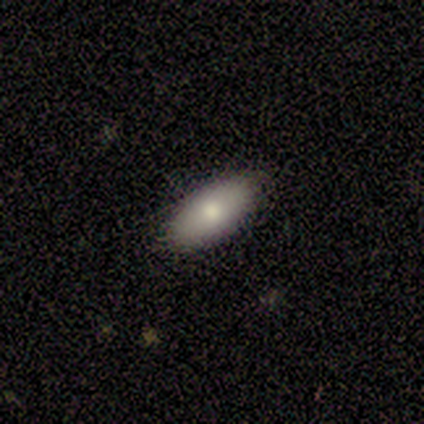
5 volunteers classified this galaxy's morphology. Consensus on every question: smooth or featured — smooth (100%); how rounded — in between (100%); merging — none (100%).